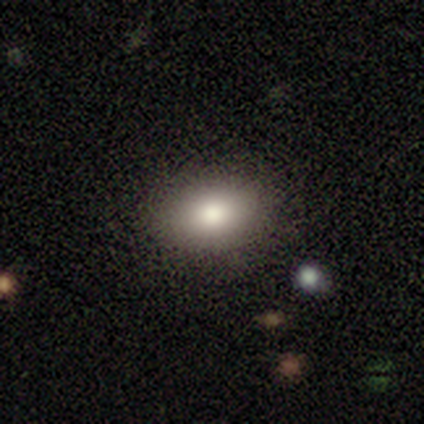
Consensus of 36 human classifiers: A smooth galaxy with no disk features (83%) that is in between round and cigar-shaped (87%).

Vote fractions:
- Smooth or featured? smooth: 83% / featured or disk: 11% / star or artifact: 6%
- How rounded? in between: 87% / round: 13% / cigar-shaped: 0%
- Merging? none: 94% / minor disturbance: 3% / merger: 3% / major disturbance: 0%